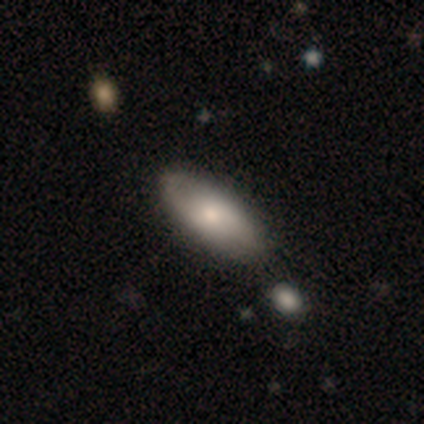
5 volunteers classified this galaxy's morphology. smooth_or_featured: smooth (p=0.80) [alt: featured or disk p=0.20]
how_rounded: in between (p=1.00)
merging: none (p=0.80) [alt: merger p=0.20]